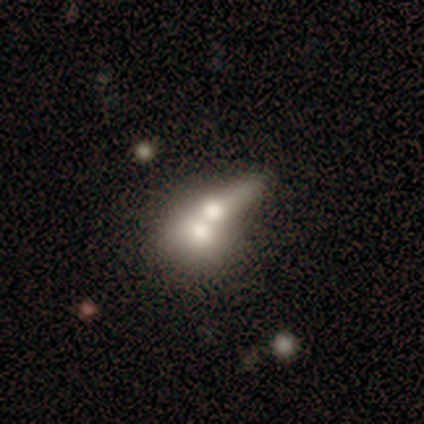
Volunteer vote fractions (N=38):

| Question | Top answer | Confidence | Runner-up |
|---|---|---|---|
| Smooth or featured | smooth | 55% | featured or disk (39%) |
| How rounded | in between | 52% | round (29%) |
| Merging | merger | 83% | major disturbance (11%) |